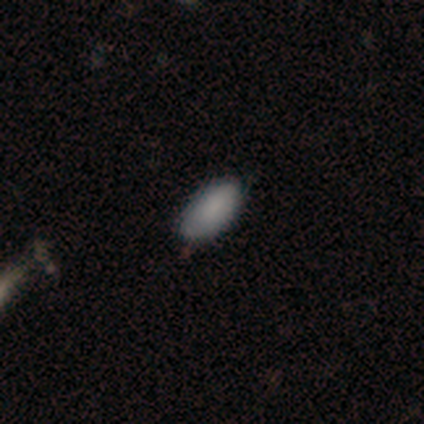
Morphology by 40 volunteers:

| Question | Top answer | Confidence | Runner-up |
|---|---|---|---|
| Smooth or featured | smooth | 92% | star or artifact (5%) |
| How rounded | in between | 95% | round (3%) |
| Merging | none | 66% | minor disturbance (29%) |